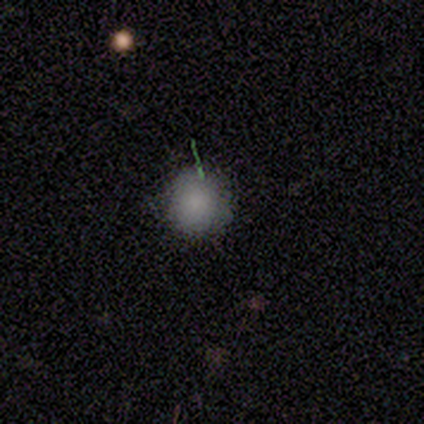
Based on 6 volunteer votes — Overall: smooth (100%). How rounded: round (100%). Merging: none (50%; minor disturbance 33%).